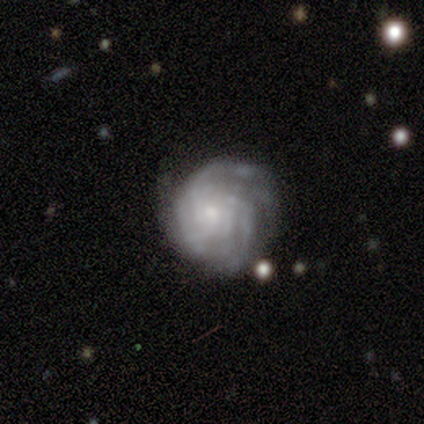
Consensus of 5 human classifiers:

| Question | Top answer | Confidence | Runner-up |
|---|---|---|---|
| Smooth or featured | featured or disk | 60% | smooth (40%) |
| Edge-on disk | no | 67% | yes (33%) |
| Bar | no | 100% | — |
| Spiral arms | yes | 100% | — |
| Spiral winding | tight | 100% | — |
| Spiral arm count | can't tell | 100% | — |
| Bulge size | moderate | 50% | tied: small (50%) |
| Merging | none | 80% | major disturbance (20%) |